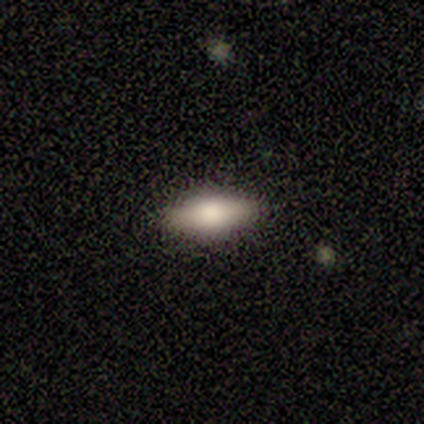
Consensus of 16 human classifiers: A smooth galaxy with no disk features (50%) that is in between round and cigar-shaped (75%).

Vote fractions:
- Smooth or featured? smooth: 50% / featured or disk: 44% / star or artifact: 6%
- How rounded? in between: 75% / cigar-shaped: 25% / round: 0%
- Merging? none: 93% / minor disturbance: 7% / major disturbance: 0% / merger: 0%